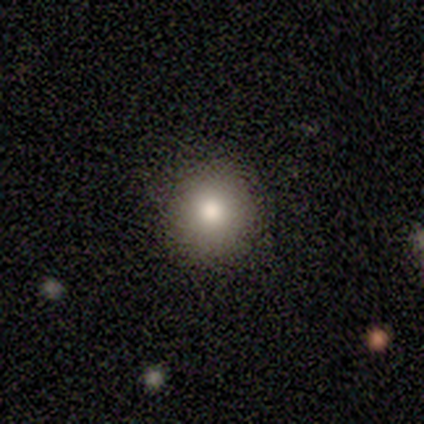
This appears to be a smooth galaxy with no disk features (100%) that is round (100%). Merging: none (100%).